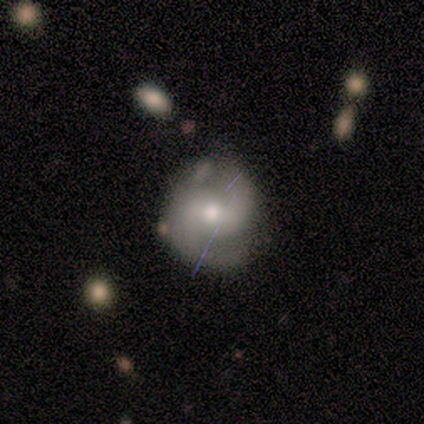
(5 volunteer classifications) Q: Smooth or featured?
A: featured or disk (80%); runner-up: smooth (20%)
Q: Edge-on disk?
A: no (100%)
Q: Bar?
A: no (50%); runner-up: strong (25%)
Q: Spiral arms?
A: yes (100%)
Q: Spiral winding?
A: medium (75%); runner-up: tight (25%)
Q: Spiral arm count?
A: 2 (75%); runner-up: 4 (25%)
Q: Bulge size?
A: moderate (50%); tied with: small (50%)
Q: Merging?
A: none (80%); runner-up: minor disturbance (20%)